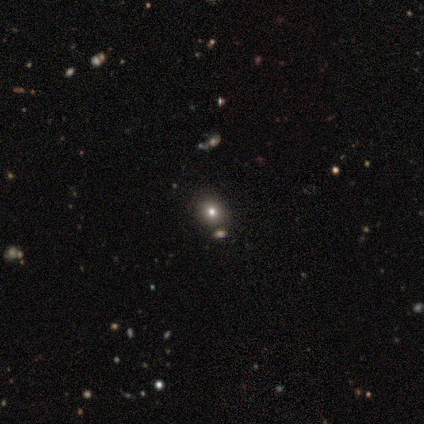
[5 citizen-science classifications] Overall: star or artifact (60%; smooth 40%).